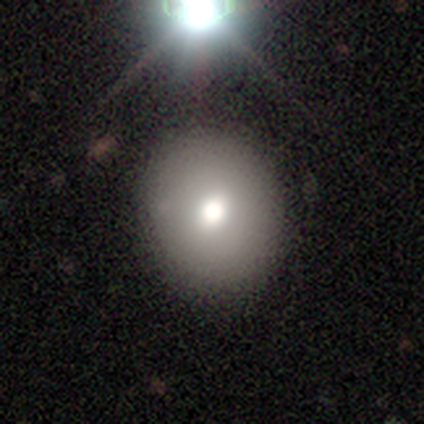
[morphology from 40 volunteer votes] Smooth or featured? smooth (72%)
How rounded? round (79%)
Merging? none (80%)